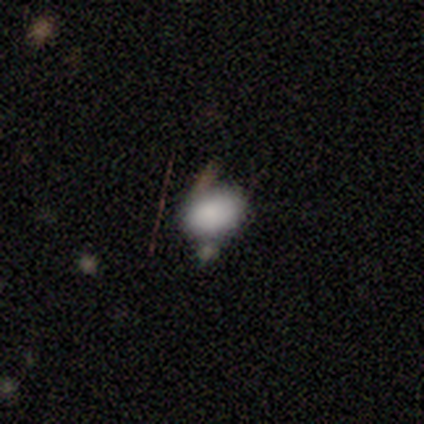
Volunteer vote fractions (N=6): smooth-or-featured: smooth: 67% | star or artifact: 33% | featured or disk: 0%
  how-rounded: in between: 75% | round: 25% | cigar-shaped: 0%
  merging: none: 75% | minor disturbance: 25% | major disturbance: 0% | merger: 0%